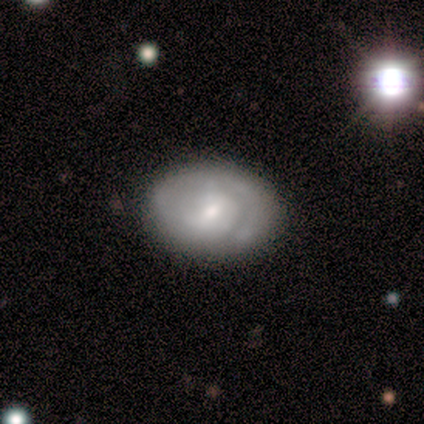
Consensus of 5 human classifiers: Q: Smooth or featured?
A: featured or disk (60%); runner-up: smooth (40%)
Q: Edge-on disk?
A: no (100%)
Q: Bar?
A: no (67%); runner-up: weak (33%)
Q: Spiral arms?
A: yes (67%); runner-up: no (33%)
Q: Spiral winding?
A: medium (50%); tied with: loose (50%)
Q: Spiral arm count?
A: 2 (100%)
Q: Bulge size?
A: small (100%)
Q: Merging?
A: none (80%); runner-up: minor disturbance (20%)